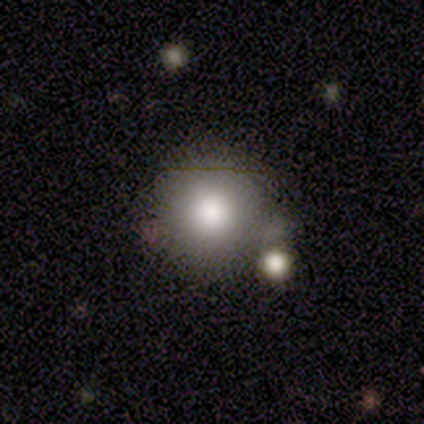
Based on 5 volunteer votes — A smooth galaxy with no disk features (100%) that is round (80%). Merging: none (40%, tied with minor disturbance).